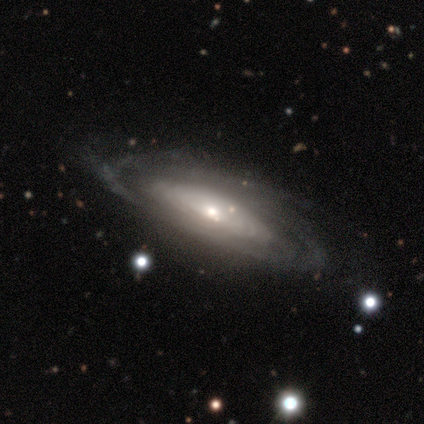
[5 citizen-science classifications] Smooth or featured? featured or disk (100%)
Edge-on disk? no (60%)
Bar? no (100%)
Spiral arms? yes (67%)
Spiral winding? tight (50%, tied with medium)
Spiral arm count? more than 4 (50%, tied with can't tell)
Bulge size? small (100%)
Merging? none (100%)